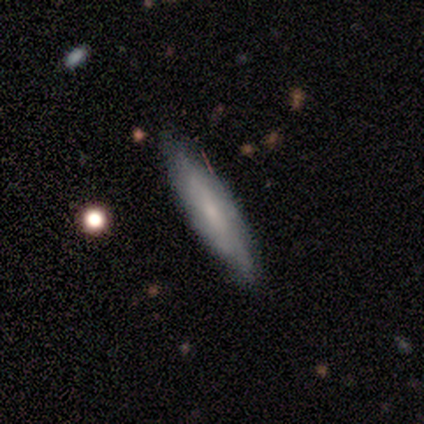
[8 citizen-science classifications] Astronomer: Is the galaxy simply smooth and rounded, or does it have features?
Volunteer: featured or disk — 88%.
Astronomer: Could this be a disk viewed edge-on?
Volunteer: no — 57% (runner-up: yes, 43%).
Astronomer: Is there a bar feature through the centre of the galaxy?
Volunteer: weak — 75%.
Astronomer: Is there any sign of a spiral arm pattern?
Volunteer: yes — 75%.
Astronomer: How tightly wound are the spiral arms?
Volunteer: tight — 67%.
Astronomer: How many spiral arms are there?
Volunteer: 3 — 67%.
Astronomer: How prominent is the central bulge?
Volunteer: small — 50%.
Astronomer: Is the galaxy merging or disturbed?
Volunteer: none — 75%.